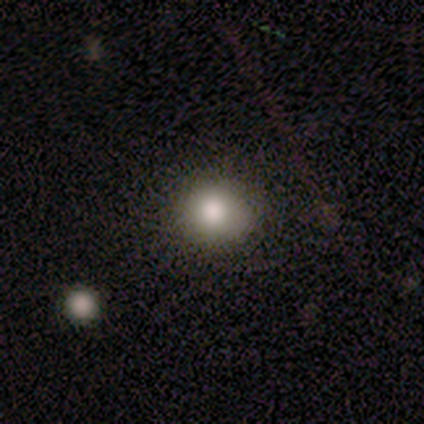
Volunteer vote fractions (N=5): Overall: smooth (100%). How rounded: round (100%). Merging: none (60%; minor disturbance 40%).